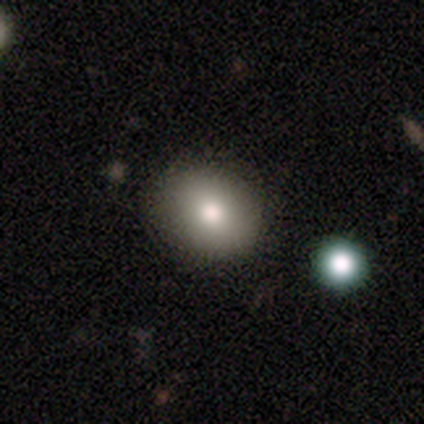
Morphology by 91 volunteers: A smooth galaxy with no disk features (76%) that is round (65%). Merging: none (82%).